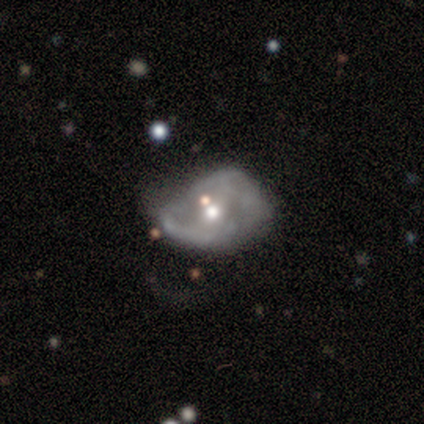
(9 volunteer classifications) Smooth or featured? featured or disk (78%)
Edge-on disk? no (86%)
Bar? weak (50%, tied with no)
Spiral arms? yes (50%, tied with no)
Spiral winding? medium (100%)
Spiral arm count? 2 (67%)
Bulge size? moderate (67%)
Merging? minor disturbance (38%, tied with major disturbance)